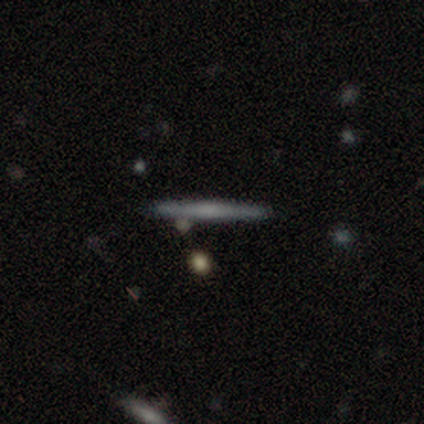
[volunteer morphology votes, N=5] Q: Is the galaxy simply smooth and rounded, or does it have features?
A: smooth — 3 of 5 (60%).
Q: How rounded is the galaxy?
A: cigar-shaped — 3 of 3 (100%).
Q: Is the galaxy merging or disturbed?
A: none — 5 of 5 (100%).